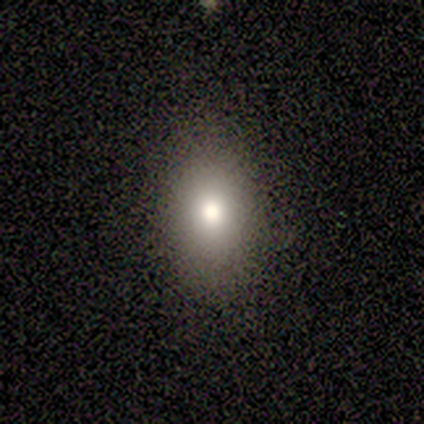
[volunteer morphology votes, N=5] smooth-or-featured: smooth: 80% | star or artifact: 20% | featured or disk: 0%
  how-rounded: in between: 100% | round: 0% | cigar-shaped: 0%
  merging: none: 75% | minor disturbance: 25% | major disturbance: 0% | merger: 0%